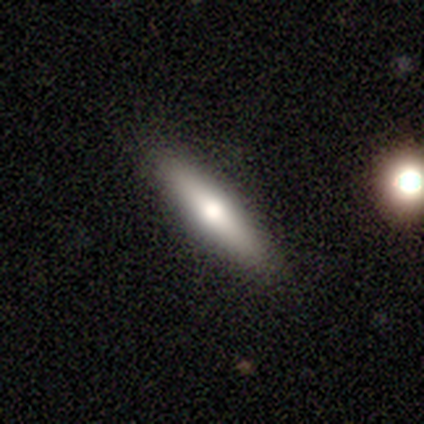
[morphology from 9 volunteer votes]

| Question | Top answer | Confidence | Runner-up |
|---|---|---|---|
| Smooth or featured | smooth | 78% | featured or disk (11%) |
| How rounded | cigar-shaped | 86% | round (14%) |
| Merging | none | 88% | minor disturbance (12%) |